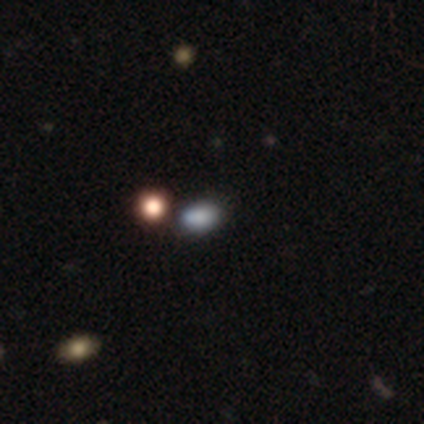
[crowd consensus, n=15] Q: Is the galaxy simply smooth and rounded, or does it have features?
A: smooth — 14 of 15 (93%).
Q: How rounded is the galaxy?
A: in between — 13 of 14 (93%).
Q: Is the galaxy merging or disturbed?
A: none — 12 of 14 (86%).